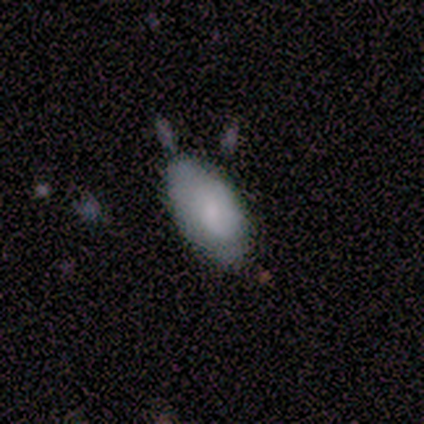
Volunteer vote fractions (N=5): Volunteers were most divided on "merging": none: 60%, minor disturbance: 40%, major disturbance: 0%, merger: 0%. More confident: smooth or featured — smooth (80%); how rounded — in between (75%).